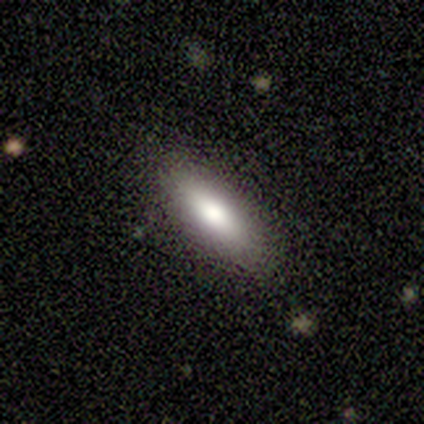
Morphology: type=smooth (80%); roundness=in between (100%); merging=none (100%).